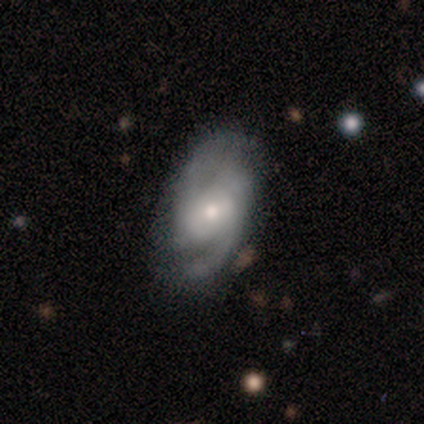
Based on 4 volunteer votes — Smooth or featured? featured or disk (50%)
Edge-on disk? no (100%)
Bar? strong (50%, tied with no)
Spiral arms? yes (100%)
Spiral winding? tight (50%, tied with loose)
Spiral arm count? 2 (100%)
Bulge size? moderate (50%, tied with small)
Merging? none (67%)